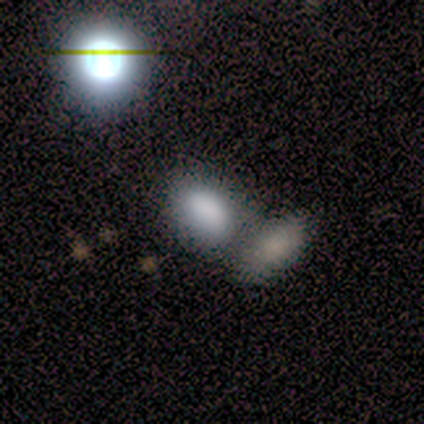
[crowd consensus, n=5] smooth 60%, featured or disk 40%, star or artifact 0%. Down the decision tree: how rounded — in between (100%); merging — none (60%).